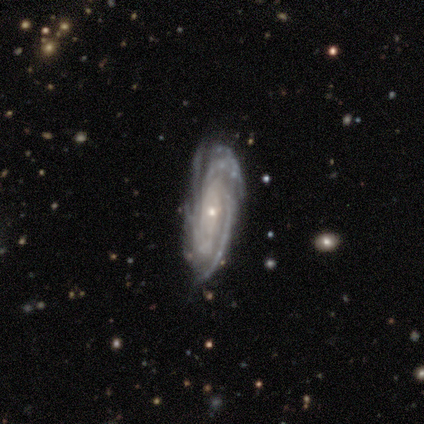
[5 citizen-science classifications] Q: Smooth or featured?
A: featured or disk (100%)
Q: Edge-on disk?
A: no (100%)
Q: Bar?
A: weak (40%); tied with: no (40%)
Q: Spiral arms?
A: yes (100%)
Q: Spiral winding?
A: tight (60%); runner-up: medium (40%)
Q: Spiral arm count?
A: 4 (60%); runner-up: 3 (20%)
Q: Bulge size?
A: small (100%)
Q: Merging?
A: none (60%); runner-up: major disturbance (40%)